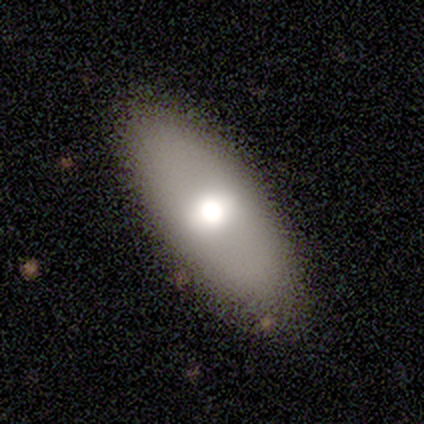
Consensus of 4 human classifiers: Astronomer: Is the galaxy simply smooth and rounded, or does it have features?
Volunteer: smooth — 50%, tied with featured or disk at 50%.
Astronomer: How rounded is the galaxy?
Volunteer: in between — 100%.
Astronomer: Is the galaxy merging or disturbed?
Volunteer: none — 75%.